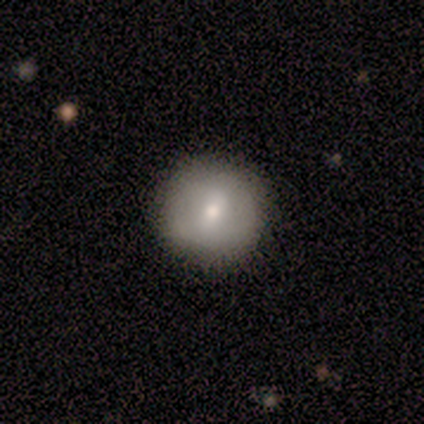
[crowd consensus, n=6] Smooth or featured? 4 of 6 (67%) said smooth. How rounded? 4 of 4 (100%) said round. Merging? 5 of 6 (83%) said none.